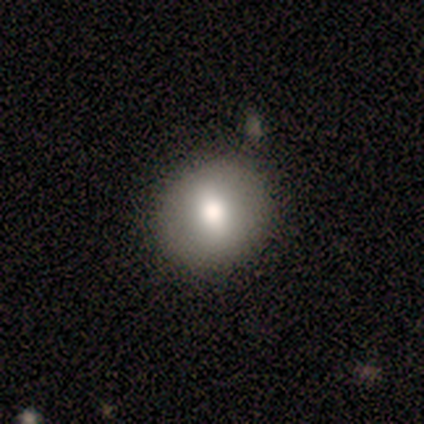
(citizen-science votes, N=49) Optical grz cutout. It shows a smooth galaxy with no disk features (65%) that is round (94%). Merging: none (91%).